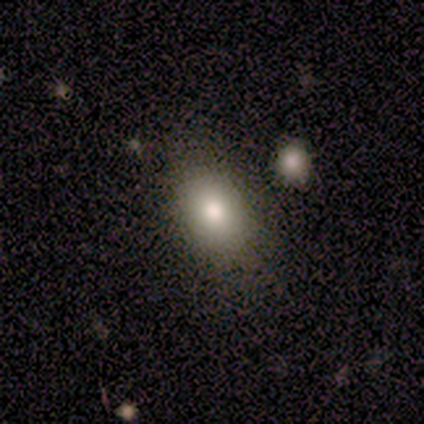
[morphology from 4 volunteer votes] smooth_or_featured: smooth (p=1.00)
how_rounded: in between (p=0.75) [alt: round p=0.25]
merging: none (p=1.00)